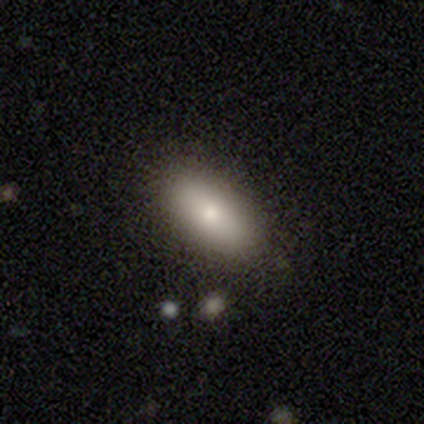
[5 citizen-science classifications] smooth-or-featured: smooth: 100% | featured or disk: 0% | star or artifact: 0%
  how-rounded: in between: 80% | cigar-shaped: 20% | round: 0%
  merging: none: 100% | minor disturbance: 0% | major disturbance: 0% | merger: 0%